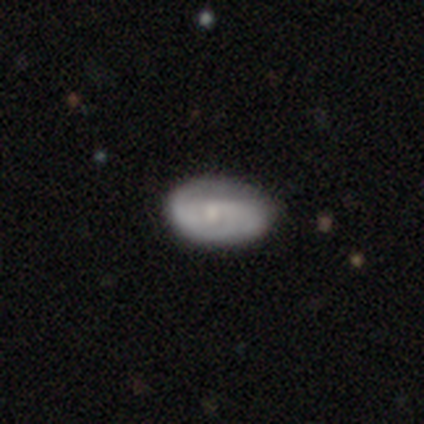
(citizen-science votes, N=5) Overall: featured or disk (60%; smooth 20%). Edge-on disk: no (100%). Bar: no (67%; weak 33%). Spiral arms: yes (100%). Spiral arm count: can't tell (67%; 2 33%). Spiral winding: tight (100%). Bulge size: small (67%; moderate 33%). Merging: none (75%).